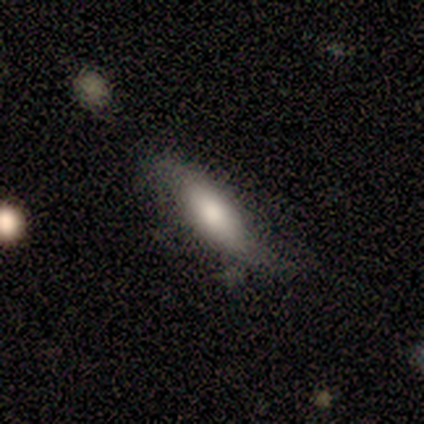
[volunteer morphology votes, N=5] Smooth or featured? 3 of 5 (60%) said smooth. How rounded? 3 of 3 (100%) said cigar-shaped. Merging? 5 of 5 (100%) said minor disturbance.